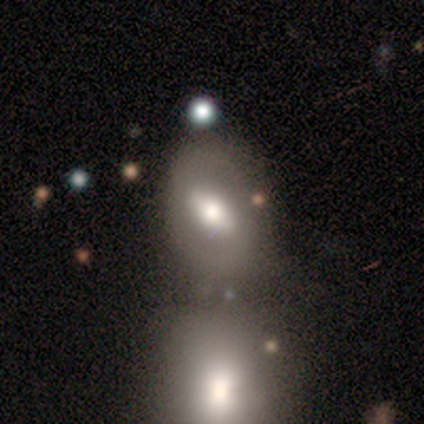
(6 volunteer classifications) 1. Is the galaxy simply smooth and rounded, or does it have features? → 67% featured or disk, 33% smooth, 0% star or artifact.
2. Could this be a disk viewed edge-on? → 75% no, 25% yes.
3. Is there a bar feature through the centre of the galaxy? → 67% strong, 33% no, 0% weak.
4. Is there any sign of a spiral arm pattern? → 67% no, 33% yes.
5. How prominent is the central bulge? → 33% dominant (tied), 33% large (tied), 33% moderate (tied), 0% small, 0% none.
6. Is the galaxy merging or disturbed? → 83% none, 17% merger, 0% minor disturbance, 0% major disturbance.